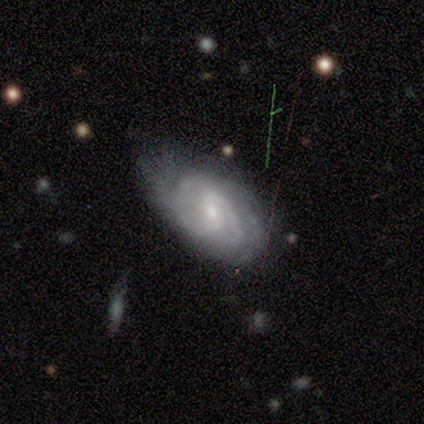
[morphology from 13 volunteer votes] smooth-or-featured: featured or disk: 100% | smooth: 0% | star or artifact: 0%
  disk-edge-on: no: 100% | yes: 0%
    bar: weak: 46% | no: 38% | strong: 15%
    has-spiral-arms: yes: 100% | no: 0%
      spiral-winding: tight: 62% | medium: 38% | loose: 0%
      spiral-arm-count: 2: 54% | can't tell: 23% | 3: 15% | 4: 8% | 1: 0% | more than 4: 0%
    bulge-size: small: 77% | moderate: 23% | dominant: 0% | large: 0% | none: 0%
  merging: none: 38% (tied) | minor disturbance: 38% (tied) | major disturbance: 23% | merger: 0%